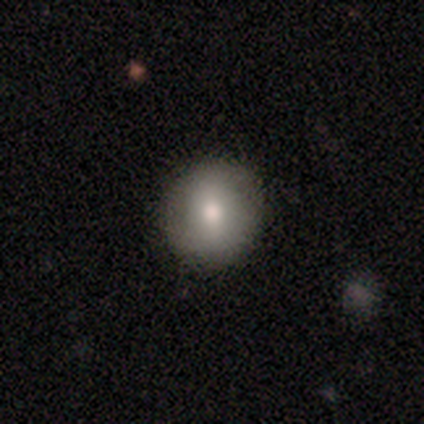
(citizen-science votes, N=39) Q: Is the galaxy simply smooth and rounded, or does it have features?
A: smooth — 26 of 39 (67%).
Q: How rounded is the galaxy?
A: round — 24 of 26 (92%).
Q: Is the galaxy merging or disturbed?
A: none — 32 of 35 (91%).